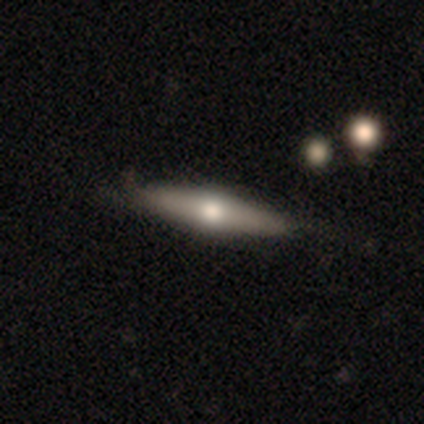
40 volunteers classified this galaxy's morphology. smooth_or_featured: smooth (p=0.55) [alt: featured or disk p=0.40]
how_rounded: cigar-shaped (p=0.73) [alt: in between p=0.23]
merging: none (p=0.61) [alt: minor disturbance p=0.11]